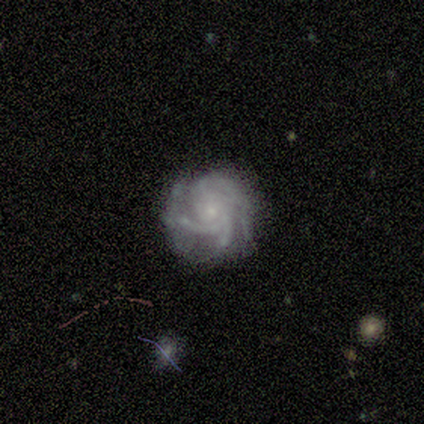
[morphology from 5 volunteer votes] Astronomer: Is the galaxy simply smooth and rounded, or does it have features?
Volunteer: featured or disk — 100%.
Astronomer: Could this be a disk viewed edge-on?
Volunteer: no — 100%.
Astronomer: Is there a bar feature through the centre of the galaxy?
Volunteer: no — 100%.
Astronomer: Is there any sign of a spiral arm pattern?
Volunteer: yes — 80%.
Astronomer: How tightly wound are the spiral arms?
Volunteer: tight — 50%, tied with medium at 50%.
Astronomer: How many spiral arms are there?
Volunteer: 4 — 50%.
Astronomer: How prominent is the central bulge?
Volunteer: small — 100%.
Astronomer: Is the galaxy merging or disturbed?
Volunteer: none — 60% (runner-up: minor disturbance, 40%).